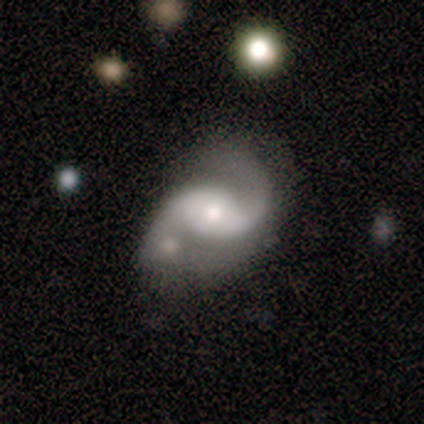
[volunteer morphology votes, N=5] This appears to be a featured or disk galaxy (100%) with a strong bar (40%, tied with weak), 2 (100%) loose (60%) spiral arms (100%) and a moderate central bulge (80%). Merging: none (40%).